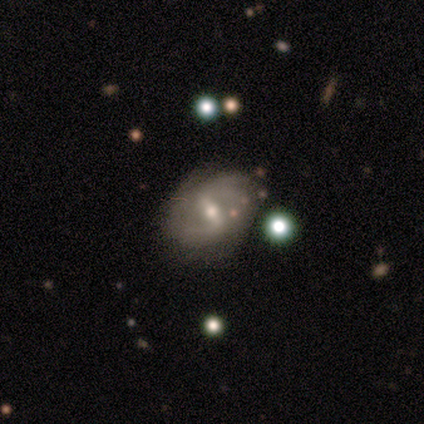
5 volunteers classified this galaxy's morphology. Q: Smooth or featured?
A: featured or disk (60%); runner-up: smooth (20%)
Q: Edge-on disk?
A: no (100%)
Q: Bar?
A: strong (67%); runner-up: weak (33%)
Q: Spiral arms?
A: yes (67%); runner-up: no (33%)
Q: Spiral winding?
A: tight (100%)
Q: Spiral arm count?
A: 2 (50%); tied with: can't tell (50%)
Q: Bulge size?
A: moderate (67%); runner-up: small (33%)
Q: Merging?
A: none (100%)